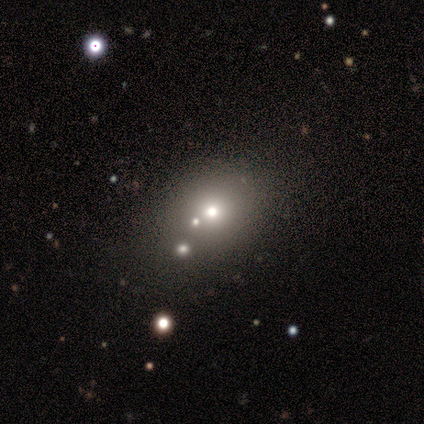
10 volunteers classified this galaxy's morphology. type=smooth (60%); roundness=round (67%); merging=none (71%).